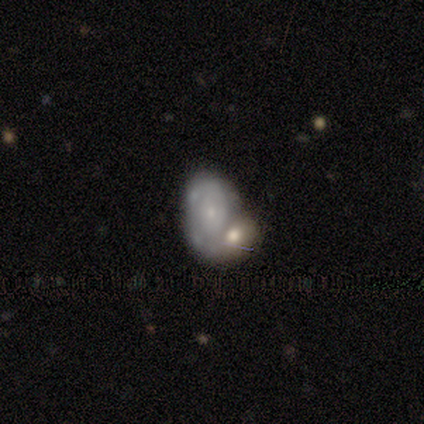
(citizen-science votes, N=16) Smooth or featured?
  - featured or disk: 81% *
  - smooth: 19%
  - star or artifact: 0%
Edge-on disk?
  - no: 100% *
  - yes: 0%
Bar?
  - no: 100% *
  - strong: 0%
  - weak: 0%
Spiral arms?
  - yes: 62% *
  - no: 38%
Spiral winding?
  - tight: 62% *
  - loose: 25%
  - medium: 12%
Spiral arm count?
  - can't tell: 62% *
  - 1: 25%
  - 2: 12%
  - 3: 0%
  - 4: 0%
  - more than 4: 0%
Bulge size?
  - small: 54% *
  - moderate: 31%
  - large: 8%
  - none: 8%
  - dominant: 0%
Merging?
  - merger: 75% *
  - none: 19%
  - major disturbance: 6%
  - minor disturbance: 0%